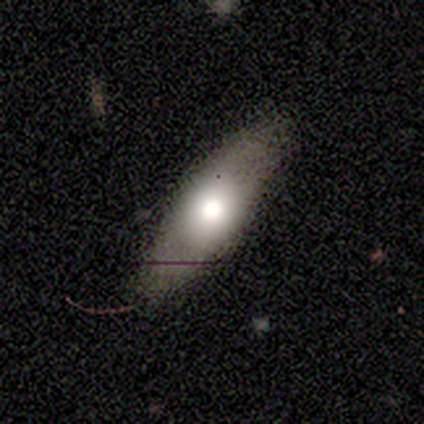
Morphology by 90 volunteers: Q: Smooth or featured?
A: smooth (67%); runner-up: featured or disk (29%)
Q: How rounded?
A: in between (53%); runner-up: cigar-shaped (47%)
Q: Merging?
A: none (76%); runner-up: minor disturbance (15%)